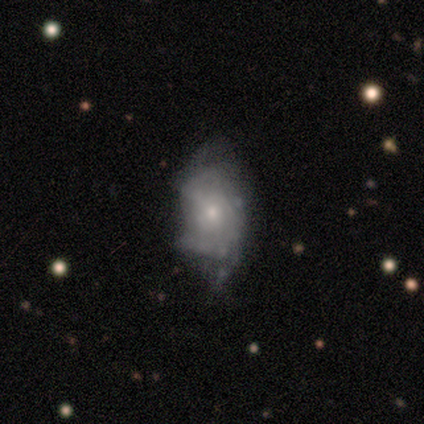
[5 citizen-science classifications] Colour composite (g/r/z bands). It shows a smooth galaxy with no disk features (60%) that is in between round and cigar-shaped (100%). Merging: none (40%, tied with major disturbance).